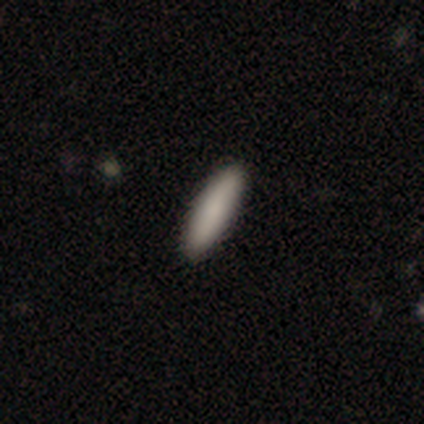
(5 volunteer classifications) Smooth or featured? 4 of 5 (80%) said smooth. How rounded? 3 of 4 (75%) said cigar-shaped. Merging? 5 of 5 (100%) said none.